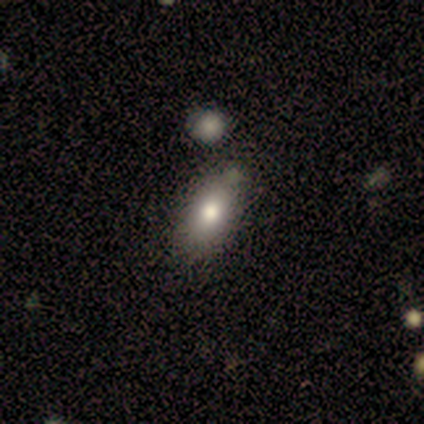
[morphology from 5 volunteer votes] A smooth galaxy with no disk features (80%) that is in between round and cigar-shaped (100%). Merging: none (80%).